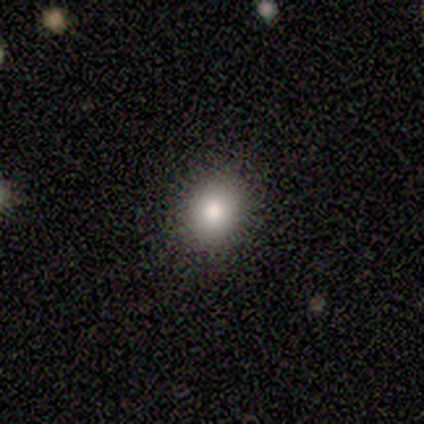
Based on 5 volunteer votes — A smooth galaxy with no disk features (60%) that is round (67%).

Vote fractions:
- Smooth or featured? smooth: 60% / featured or disk: 20% / star or artifact: 20%
- How rounded? round: 67% / in between: 33% / cigar-shaped: 0%
- Merging? none: 75% / minor disturbance: 25% / major disturbance: 0% / merger: 0%